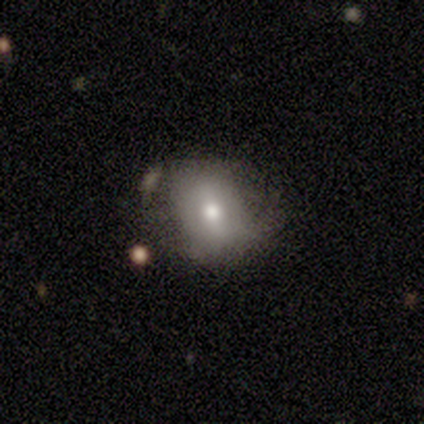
A featured or disk galaxy (60%) with a strong bar (33%, tied with weak and no), 2 (100%) loose (100%) spiral arms (67%) and a moderate central bulge (67%).

Vote fractions:
- Smooth or featured? featured or disk: 60% / smooth: 40% / star or artifact: 0%
- Edge-on disk? no: 100% / yes: 0%
- Bar? strong: 33% (tied) / weak: 33% (tied) / no: 33% (tied)
- Spiral arms? yes: 67% / no: 33%
- Spiral winding? loose: 100% / tight: 0% / medium: 0%
- Spiral arm count? 2: 100% / 1: 0% / 3: 0% / 4: 0% / more than 4: 0% / can't tell: 0%
- Bulge size? moderate: 67% / small: 33% / dominant: 0% / large: 0% / none: 0%
- Merging? none: 60% / minor disturbance: 20% / major disturbance: 20% / merger: 0%